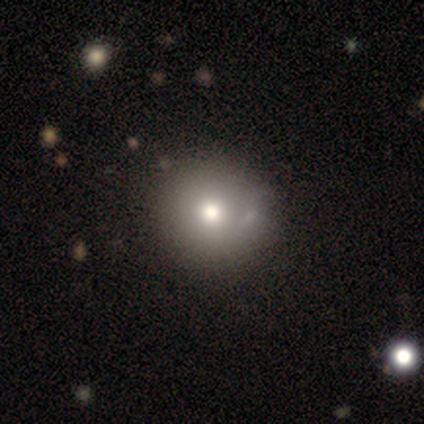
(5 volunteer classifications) This is clearly a smooth galaxy (80%). How rounded: clearly round (100%). Merging: clearly none (80%).